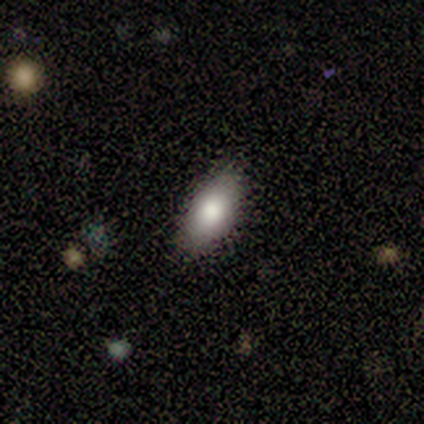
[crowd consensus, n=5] Volunteers were most divided on "merging": none: 80%, minor disturbance: 20%, major disturbance: 0%, merger: 0%. More confident: smooth or featured — smooth (100%); how rounded — in between (100%).